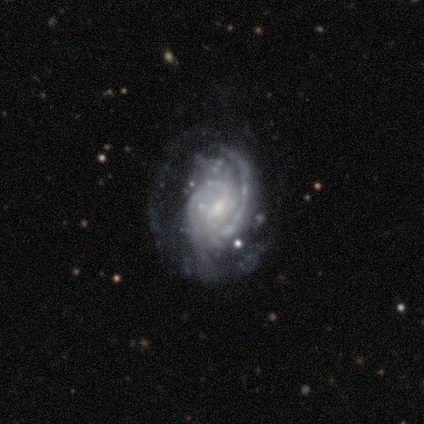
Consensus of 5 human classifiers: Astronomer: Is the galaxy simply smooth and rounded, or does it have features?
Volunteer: featured or disk — 100%.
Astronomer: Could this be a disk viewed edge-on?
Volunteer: no — 100%.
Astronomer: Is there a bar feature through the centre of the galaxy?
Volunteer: weak — 60% (runner-up: no, 40%).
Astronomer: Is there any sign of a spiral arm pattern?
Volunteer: yes — 100%.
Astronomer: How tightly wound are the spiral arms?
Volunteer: tight — 60% (runner-up: medium, 40%).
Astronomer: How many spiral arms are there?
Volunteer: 2 — 60%.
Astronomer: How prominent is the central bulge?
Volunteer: small — 100%.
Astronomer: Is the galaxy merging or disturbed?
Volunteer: minor disturbance — 80%.